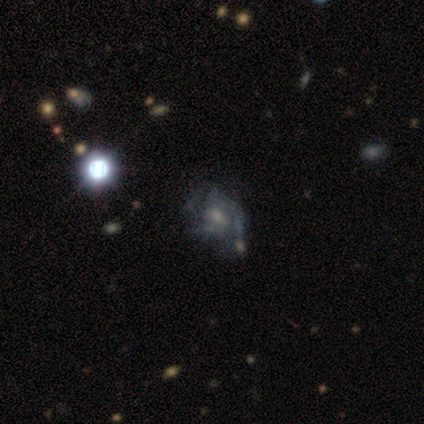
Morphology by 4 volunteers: This is clearly a featured or disk galaxy (100%). It is clearly not viewed edge-on (100%). Bar: likely weak (75%). Spiral arm pattern: possibly yes (50%, tied with no). Spiral arm count: possibly 3 (50%, tied with 4). Spiral winding: possibly tight (50%, tied with medium). Central bulge: possibly small (50%). Merging: possibly none (50%, tied with minor disturbance).